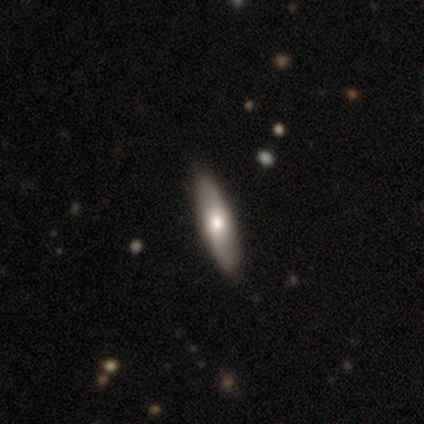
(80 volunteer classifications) Q: Smooth or featured?
A: smooth (50%); tied with: featured or disk (50%)
Q: How rounded?
A: cigar-shaped (72%); runner-up: in between (25%)
Q: Merging?
A: none (50%); runner-up: minor disturbance (8%)